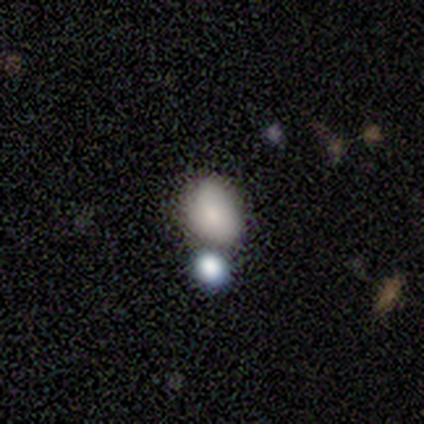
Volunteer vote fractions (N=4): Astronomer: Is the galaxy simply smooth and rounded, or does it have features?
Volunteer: star or artifact — 75%.